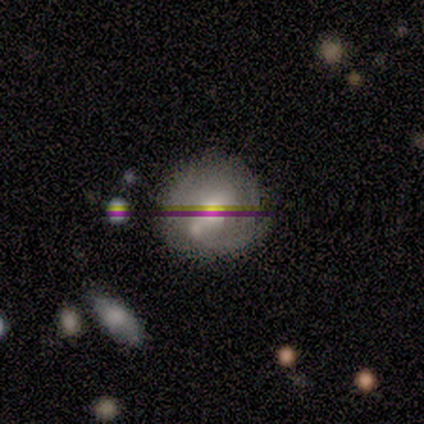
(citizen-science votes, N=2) Volunteers were most divided on "spiral arms" (2-way tie): yes: 50%, no: 50%; "bulge size" (2-way tie): large: 50%, moderate: 50%, dominant: 0%, small: 0%, none: 0%. More confident: smooth or featured — featured or disk (100%); edge-on disk — no (100%); bar — no (100%); spiral winding — tight (100%); spiral arm count — 3 (100%); merging — none (100%).